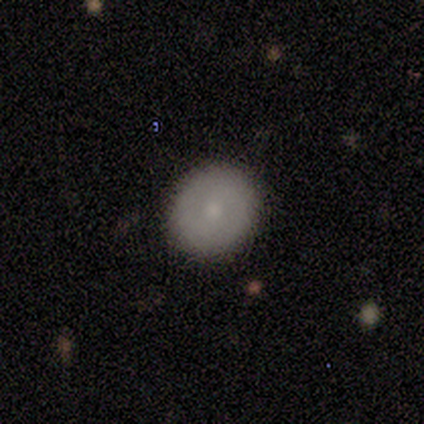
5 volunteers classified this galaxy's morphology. Smooth or featured? smooth (80%)
How rounded? round (50%, tied with in between)
Merging? none (100%)